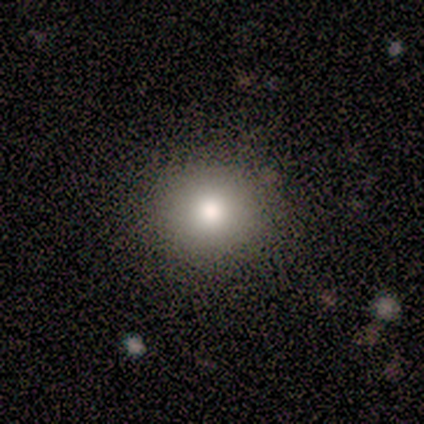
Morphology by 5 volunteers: Smooth or featured: smooth — 100%
How rounded: round — 100%
Merging: none — 100%